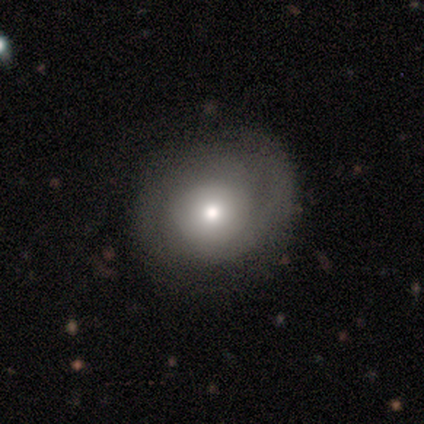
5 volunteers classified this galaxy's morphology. Smooth or featured?
  - featured or disk: 60% *
  - smooth: 20%
  - star or artifact: 20%
Edge-on disk?
  - no: 100% *
  - yes: 0%
Bar?
  - no: 67% *
  - weak: 33%
  - strong: 0%
Spiral arms?
  - yes: 100% *
  - no: 0%
Spiral winding?
  - loose: 67% *
  - tight: 33%
  - medium: 0%
Spiral arm count?
  - 1: 33% * (tied)
  - 2: 33% * (tied)
  - can't tell: 33% * (tied)
  - 3: 0%
  - 4: 0%
  - more than 4: 0%
Bulge size?
  - moderate: 67% *
  - small: 33%
  - dominant: 0%
  - large: 0%
  - none: 0%
Merging?
  - none: 100% *
  - minor disturbance: 0%
  - major disturbance: 0%
  - merger: 0%